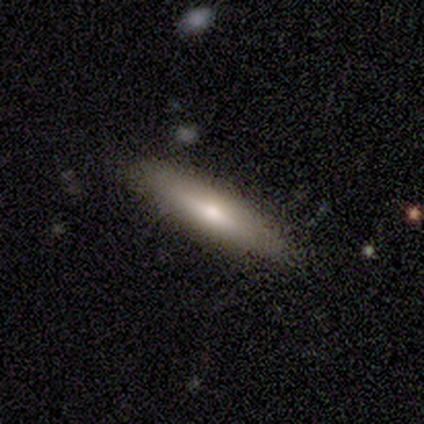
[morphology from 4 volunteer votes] This is possibly a smooth galaxy (50%, tied with featured or disk). How rounded: possibly in between (50%, tied with cigar-shaped). Merging: likely none (75%).